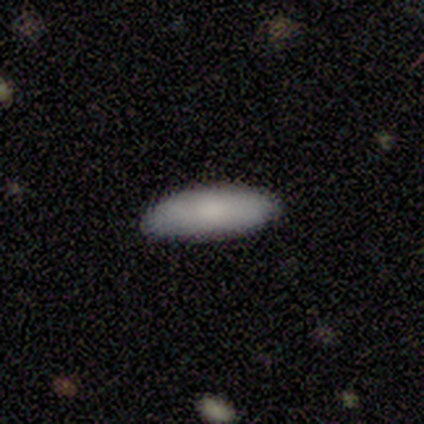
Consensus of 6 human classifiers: Q: Smooth or featured?
A: smooth (100%)
Q: How rounded?
A: in between (50%); tied with: cigar-shaped (50%)
Q: Merging?
A: none (100%)